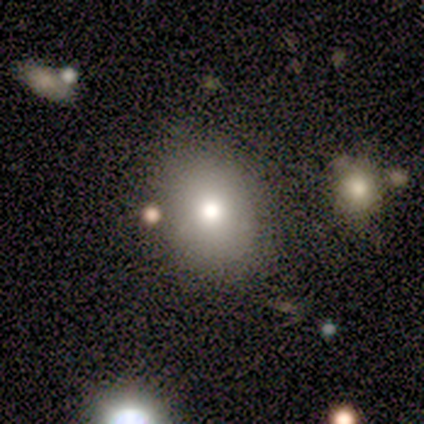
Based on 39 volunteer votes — Overall: smooth (72%). How rounded: round (57%; in between 43%). Merging: none (72%).